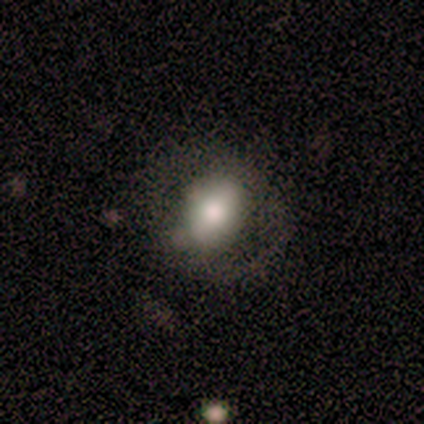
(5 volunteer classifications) Smooth or featured: smooth — 60% (featured or disk — 40%)
How rounded: round — 67% (in between — 33%)
Merging: minor disturbance — 60% (none — 20%)